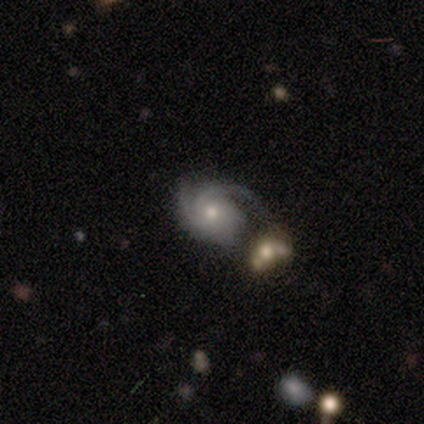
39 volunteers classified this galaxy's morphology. smooth_or_featured: featured or disk (p=0.92) [alt: smooth p=0.05]
disk_edge_on: no (p=1.00)
bar: no (p=0.78) [alt: weak p=0.14]
has_spiral_arms: yes (p=0.97) [alt: no p=0.03]
spiral_winding: tight (p=0.49) [alt: medium p=0.40]
spiral_arm_count: 2 (p=0.46) [alt: can't tell p=0.26]
bulge_size: moderate (p=0.47) [tied with: small p=0.47]
merging: none (p=0.32) [alt: minor disturbance p=0.26]